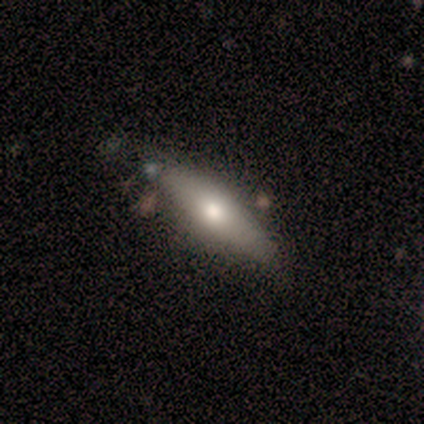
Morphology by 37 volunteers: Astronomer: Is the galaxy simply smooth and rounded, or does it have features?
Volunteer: smooth — 54% (runner-up: featured or disk, 41%).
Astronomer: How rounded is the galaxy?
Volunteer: cigar-shaped — 80%.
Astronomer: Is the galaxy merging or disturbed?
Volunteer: none — 83%.